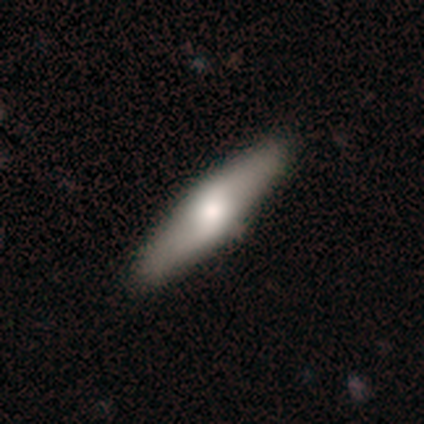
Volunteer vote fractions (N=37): Smooth or featured: smooth — 59% (featured or disk — 41%)
How rounded: cigar-shaped — 68% (in between — 32%)
Merging: none — 54% (minor disturbance — 5%)